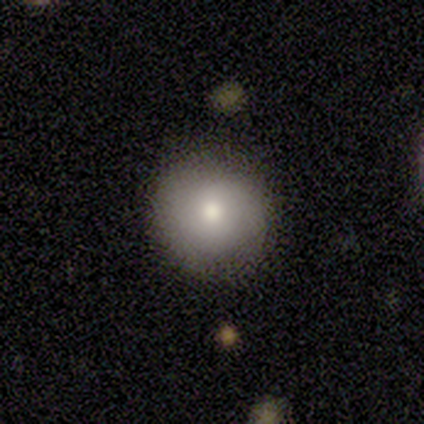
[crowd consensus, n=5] Q: Smooth or featured?
A: smooth (80%); runner-up: star or artifact (20%)
Q: How rounded?
A: round (100%)
Q: Merging?
A: none (100%)